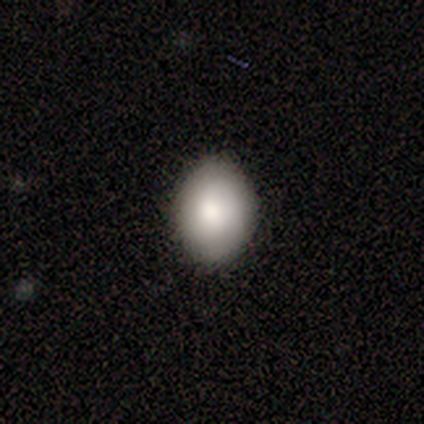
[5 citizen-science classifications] Morphology: type=smooth (80%); roundness=in between (75%); merging=none (100%).